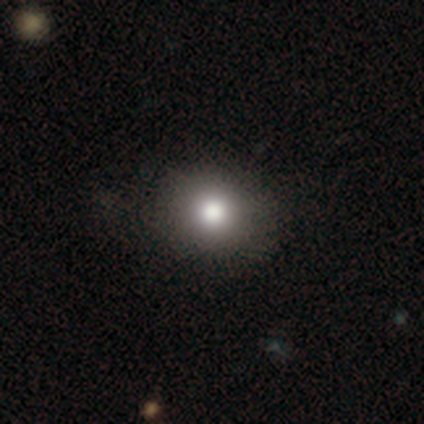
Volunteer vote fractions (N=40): smooth-or-featured: smooth: 75% | featured or disk: 12% | star or artifact: 12%
  how-rounded: round: 70% | in between: 30% | cigar-shaped: 0%
  merging: none: 86% | minor disturbance: 9% | major disturbance: 6% | merger: 0%